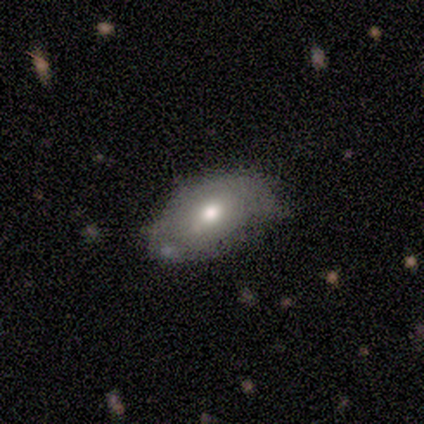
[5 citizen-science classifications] Smooth or featured? smooth (60%)
How rounded? in between (100%)
Merging? none (60%)